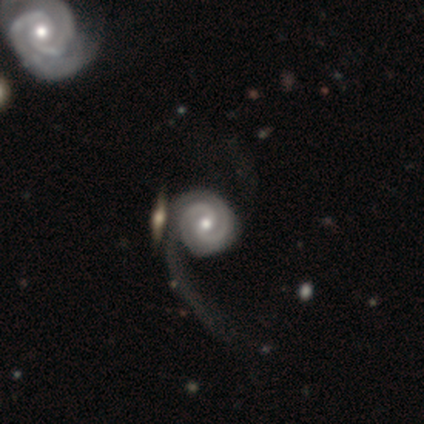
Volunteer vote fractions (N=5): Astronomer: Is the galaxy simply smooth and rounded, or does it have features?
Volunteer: featured or disk — 100%.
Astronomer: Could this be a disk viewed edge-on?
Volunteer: no — 100%.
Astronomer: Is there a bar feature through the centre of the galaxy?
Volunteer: no — 80%.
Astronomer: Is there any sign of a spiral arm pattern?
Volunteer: yes — 100%.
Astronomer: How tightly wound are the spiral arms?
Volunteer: tight — 80%.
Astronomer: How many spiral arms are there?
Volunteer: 2 — 60%.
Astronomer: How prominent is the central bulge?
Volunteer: moderate — 60% (runner-up: small, 40%).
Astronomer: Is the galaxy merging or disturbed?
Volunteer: minor disturbance — 40%, tied with major disturbance at 40%.